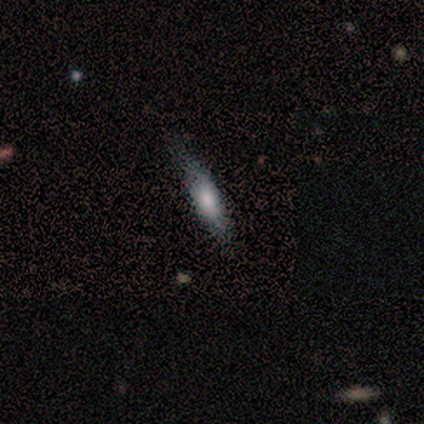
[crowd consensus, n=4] smooth-or-featured: smooth: 50% (tied) | featured or disk: 50% (tied) | star or artifact: 0%
  how-rounded: in between: 50% (tied) | cigar-shaped: 50% (tied) | round: 0%
  merging: minor disturbance: 75% | none: 25% | major disturbance: 0% | merger: 0%